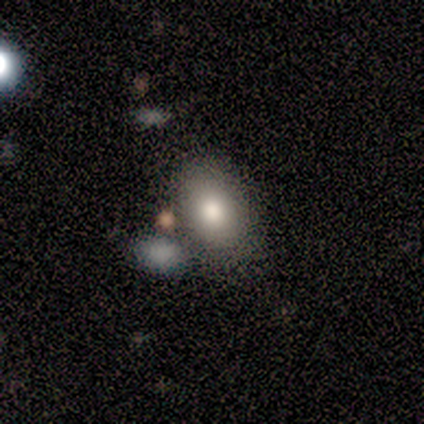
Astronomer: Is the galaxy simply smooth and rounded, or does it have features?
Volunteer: smooth — 86%.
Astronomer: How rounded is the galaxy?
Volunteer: in between — 83%.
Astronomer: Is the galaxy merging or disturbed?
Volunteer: none — 57%.